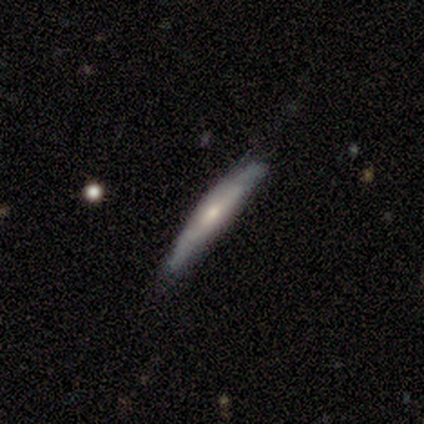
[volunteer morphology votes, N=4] Smooth or featured? 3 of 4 (75%) said featured or disk. Edge-on disk? 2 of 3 (67%) said yes. Edge-on bulge? 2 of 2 (100%) said rounded. Merging? 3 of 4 (75%) said none.